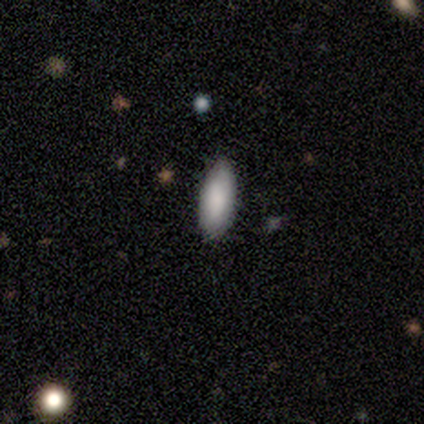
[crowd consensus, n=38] smooth_or_featured: smooth (p=0.87) [alt: featured or disk p=0.11]
how_rounded: in between (p=0.88) [alt: cigar-shaped p=0.12]
merging: none (p=0.78) [alt: minor disturbance p=0.22]